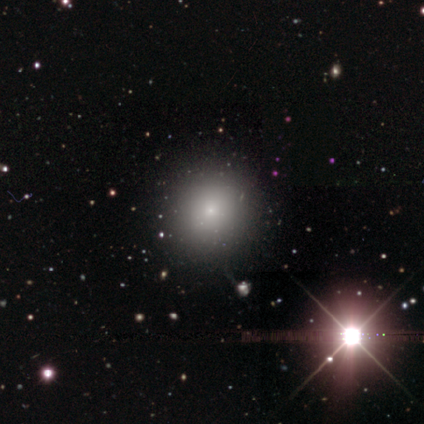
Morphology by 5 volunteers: Smooth or featured? smooth (100%)
How rounded? round (100%)
Merging? none (100%)